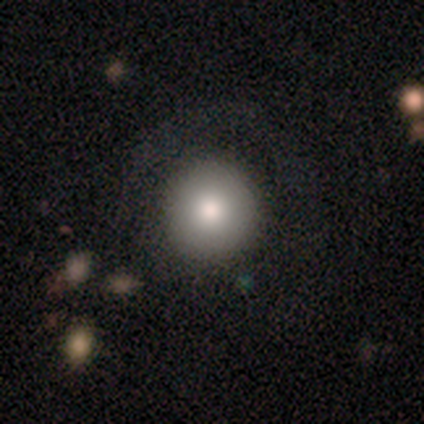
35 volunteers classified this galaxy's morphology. Smooth or featured: smooth — 83% (star or artifact — 11%)
How rounded: round — 100%
Merging: none — 74% (major disturbance — 16%)